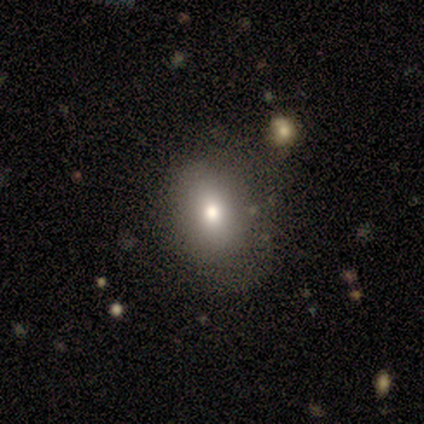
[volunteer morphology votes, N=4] Smooth or featured: smooth — 75% (featured or disk — 25%)
How rounded: in between — 100%
Merging: none — 75% (minor disturbance — 25%)